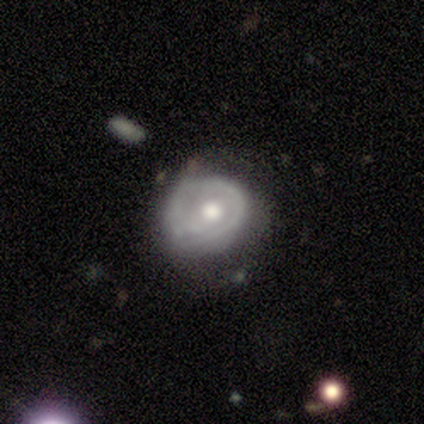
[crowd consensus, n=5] Smooth or featured: featured or disk — 80% (smooth — 20%)
Edge-on disk: no — 100%
Bar: no — 100%
Spiral arms: yes — 75% (no — 25%)
Spiral winding: tight — 67% (loose — 33%)
Spiral arm count: 1 — 67% (2 — 33%)
Bulge size: moderate — 75% (large — 25%)
Merging: none — 40% (tied with minor disturbance — 40%)